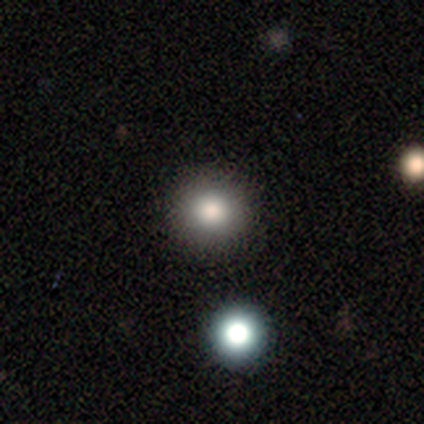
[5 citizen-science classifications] Smooth or featured? 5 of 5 (100%) said smooth. How rounded? 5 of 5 (100%) said round. Merging? 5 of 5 (100%) said none.